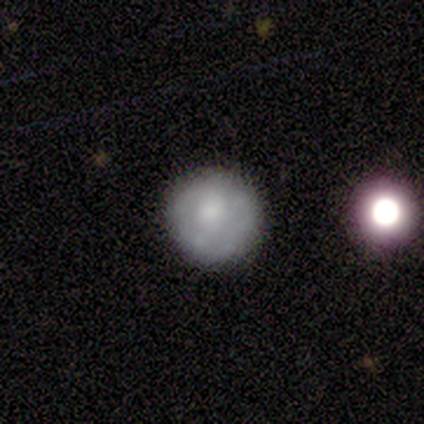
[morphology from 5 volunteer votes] star or artifact 60%, smooth 40%, featured or disk 0%.